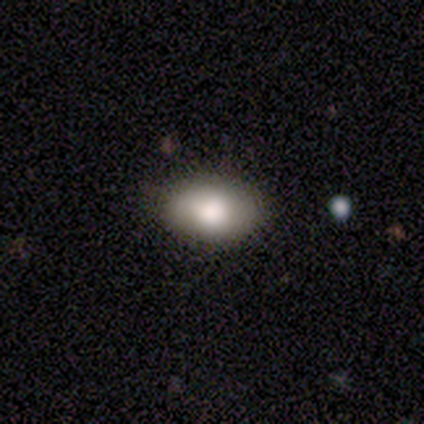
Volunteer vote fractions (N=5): Morphology: type=smooth (80%); roundness=in between (75%); merging=none (100%).